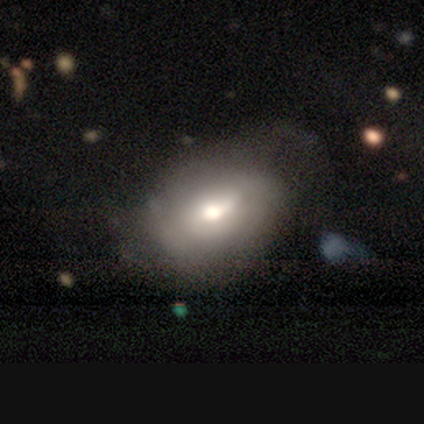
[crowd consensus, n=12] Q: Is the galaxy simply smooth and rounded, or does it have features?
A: smooth — 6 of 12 (50%, tied with featured or disk).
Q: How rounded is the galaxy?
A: in between — 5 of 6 (83%).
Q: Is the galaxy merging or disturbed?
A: none — 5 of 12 (42%).